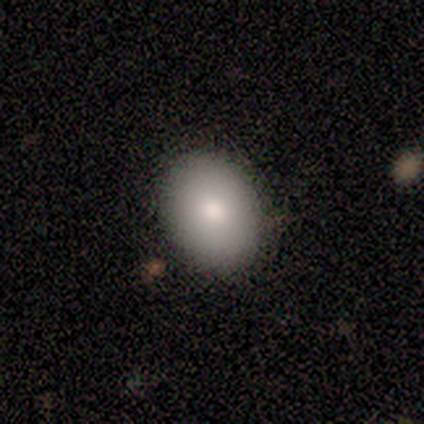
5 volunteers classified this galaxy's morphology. Smooth or featured?
  - smooth: 100% *
  - featured or disk: 0%
  - star or artifact: 0%
How rounded?
  - in between: 80% *
  - round: 20%
  - cigar-shaped: 0%
Merging?
  - none: 100% *
  - minor disturbance: 0%
  - major disturbance: 0%
  - merger: 0%